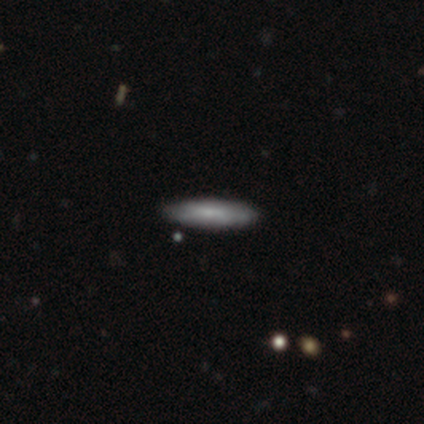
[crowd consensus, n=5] Volunteers were most divided on "smooth or featured": smooth: 60%, featured or disk: 20%, star or artifact: 20%. More confident: how rounded — cigar-shaped (100%); merging — none (100%).